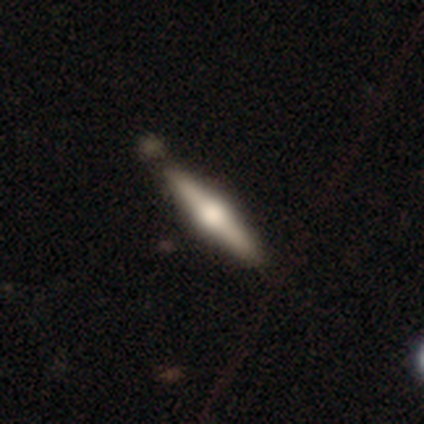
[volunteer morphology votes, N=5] Smooth or featured? featured or disk (60%)
Edge-on disk? yes (100%)
Edge-on bulge? rounded (100%)
Merging? none (80%)